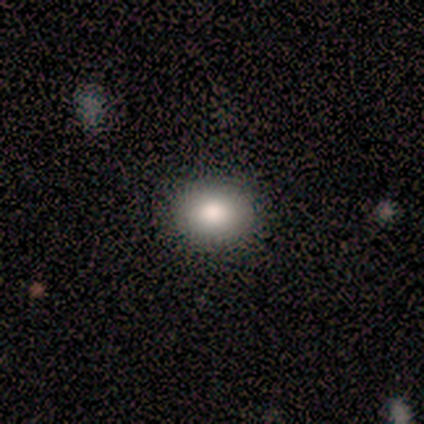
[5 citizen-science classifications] Smooth or featured? 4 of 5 (80%) said smooth. How rounded? 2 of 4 (50%, tied with in between) said round. Merging? 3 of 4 (75%) said none.